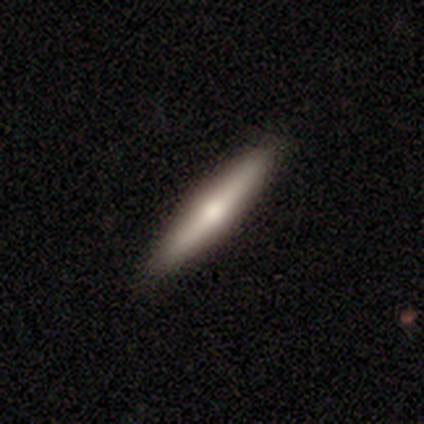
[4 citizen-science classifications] Overall: smooth (50%, tied with featured or disk). How rounded: cigar-shaped (100%). Merging: none (100%).